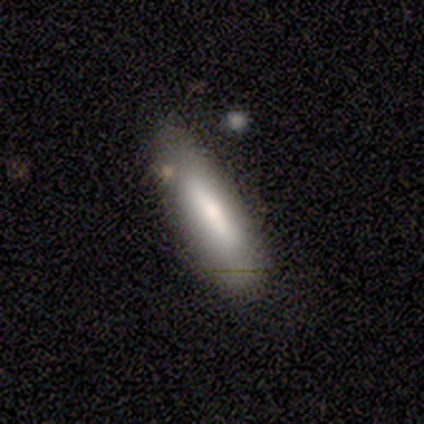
This is likely a smooth galaxy (74%). How rounded: likely cigar-shaped (64%). Merging: likely none (76%).